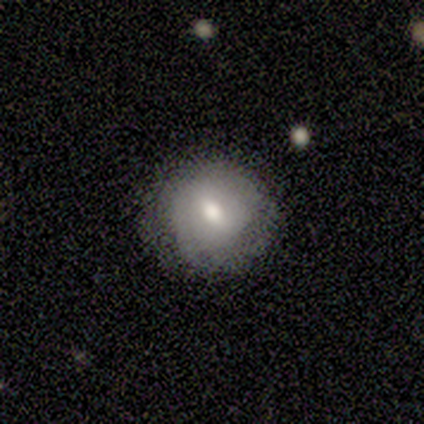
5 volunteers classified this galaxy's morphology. type=featured or disk (80%); edge-on=no (100%); bar=weak (50%, tied with no); spiral arms=no (75%); bulge=moderate (100%); merging=none (100%).